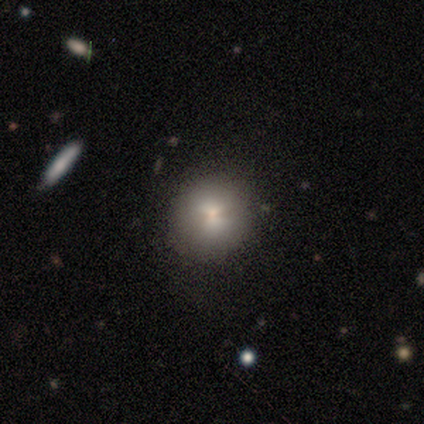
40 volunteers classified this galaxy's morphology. Smooth or featured? smooth (75%)
How rounded? round (90%)
Merging? none (97%)